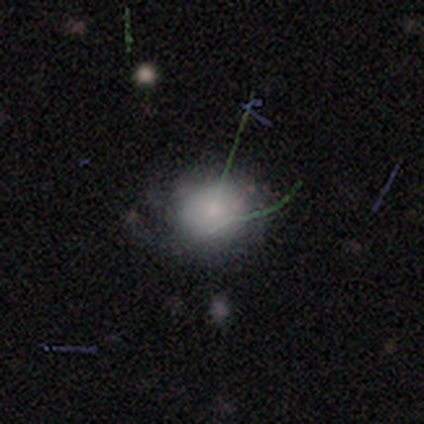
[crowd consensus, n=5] Overall: smooth (100%). How rounded: round (80%). Merging: none (80%).